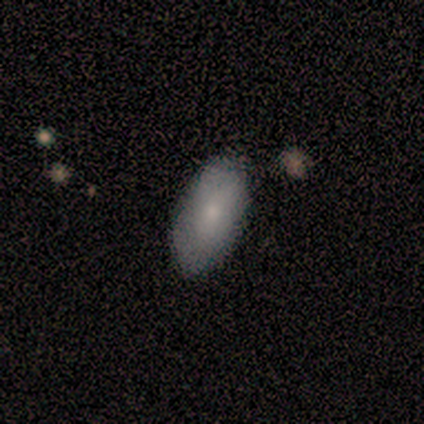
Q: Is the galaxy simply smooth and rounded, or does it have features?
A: smooth — 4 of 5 (80%).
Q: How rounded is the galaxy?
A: in between — 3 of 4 (75%).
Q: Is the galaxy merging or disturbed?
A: minor disturbance — 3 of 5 (60%).